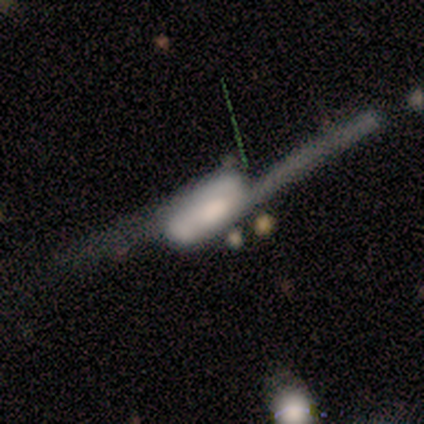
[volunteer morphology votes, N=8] Smooth or featured?
  - featured or disk: 88% *
  - smooth: 12%
  - star or artifact: 0%
Edge-on disk?
  - no: 71% *
  - yes: 29%
Bar?
  - no: 60% *
  - weak: 40%
  - strong: 0%
Spiral arms?
  - yes: 80% *
  - no: 20%
Spiral winding?
  - loose: 100% *
  - tight: 0%
  - medium: 0%
Spiral arm count?
  - 2: 100% *
  - 1: 0%
  - 3: 0%
  - 4: 0%
  - more than 4: 0%
  - can't tell: 0%
Bulge size?
  - moderate: 40% *
  - large: 20%
  - small: 20%
  - none: 20%
  - dominant: 0%
Merging?
  - none: 38% * (tied)
  - major disturbance: 38% * (tied)
  - minor disturbance: 25%
  - merger: 0%